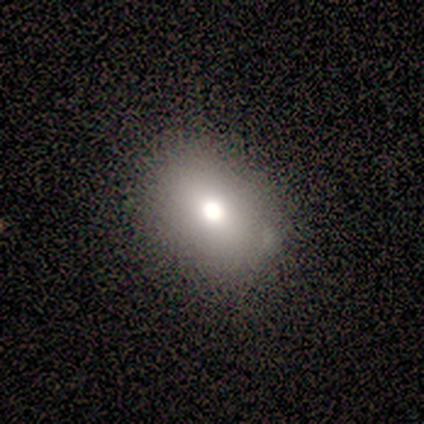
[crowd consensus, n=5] Smooth or featured?
  - smooth: 80% *
  - featured or disk: 20%
  - star or artifact: 0%
How rounded?
  - in between: 75% *
  - round: 25%
  - cigar-shaped: 0%
Merging?
  - none: 60% *
  - minor disturbance: 40%
  - major disturbance: 0%
  - merger: 0%